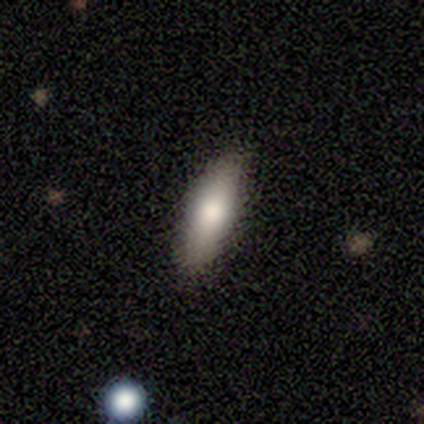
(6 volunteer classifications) A smooth galaxy with no disk features (83%) that is cigar-shaped (80%).

Vote fractions:
- Smooth or featured? smooth: 83% / featured or disk: 17% / star or artifact: 0%
- How rounded? cigar-shaped: 80% / in between: 20% / round: 0%
- Merging? none: 100% / minor disturbance: 0% / major disturbance: 0% / merger: 0%